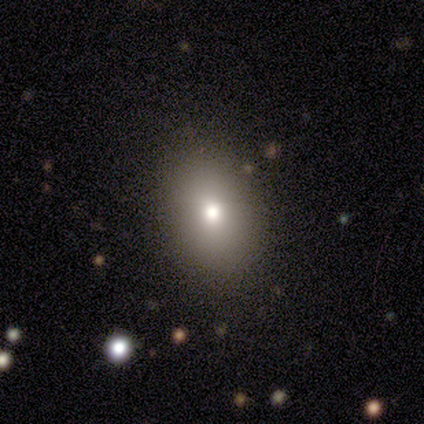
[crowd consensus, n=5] Overall: smooth (80%). How rounded: in between (75%). Merging: none (80%).